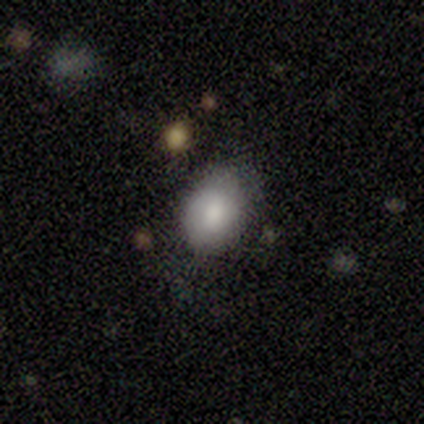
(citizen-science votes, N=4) Q: Smooth or featured?
A: smooth (75%); runner-up: featured or disk (25%)
Q: How rounded?
A: in between (100%)
Q: Merging?
A: none (50%); tied with: minor disturbance (50%)